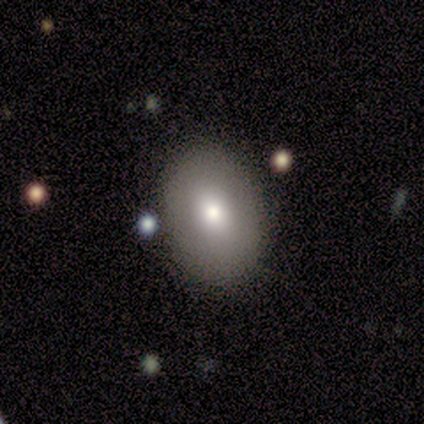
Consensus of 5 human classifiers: A smooth galaxy with no disk features (100%) that is round (60%).

Vote fractions:
- Smooth or featured? smooth: 100% / featured or disk: 0% / star or artifact: 0%
- How rounded? round: 60% / in between: 40% / cigar-shaped: 0%
- Merging? none: 60% / minor disturbance: 40% / major disturbance: 0% / merger: 0%